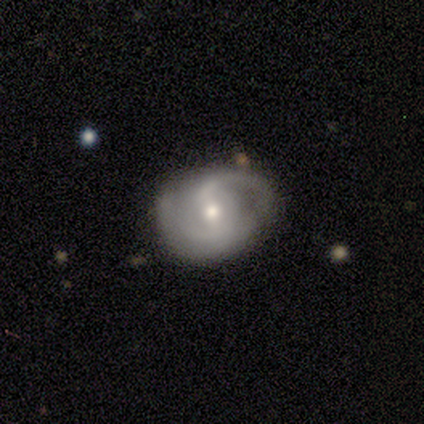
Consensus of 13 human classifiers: smooth-or-featured: featured or disk: 85% | smooth: 8% | star or artifact: 8%
  disk-edge-on: no: 100% | yes: 0%
    bar: weak: 55% | strong: 36% | no: 9%
    has-spiral-arms: yes: 100% | no: 0%
      spiral-winding: tight: 55% | medium: 27% | loose: 18%
      spiral-arm-count: 2: 82% | 1: 9% | can't tell: 9% | 3: 0% | 4: 0% | more than 4: 0%
    bulge-size: moderate: 82% | small: 18% | dominant: 0% | large: 0% | none: 0%
  merging: minor disturbance: 58% | none: 33% | major disturbance: 8% | merger: 0%